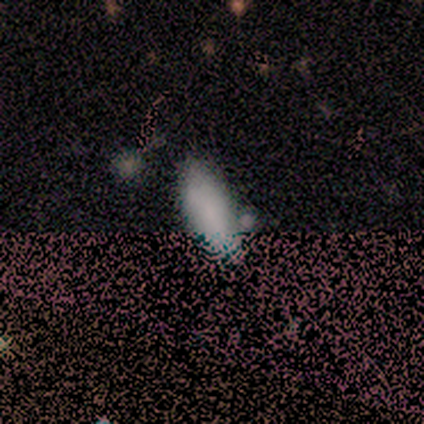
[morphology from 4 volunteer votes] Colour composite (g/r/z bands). It shows a smooth galaxy with no disk features (75%) that is in between round and cigar-shaped (100%). Merging: none (67%).